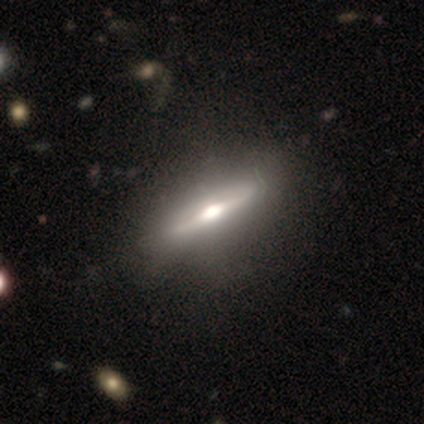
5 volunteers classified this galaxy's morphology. Volunteers were most divided on "edge-on bulge": rounded: 75%, boxy: 25%, none: 0%. More confident: edge-on disk — yes (100%); smooth or featured — featured or disk (80%); merging — none (80%).